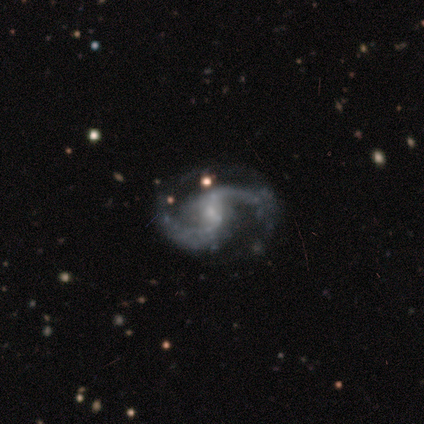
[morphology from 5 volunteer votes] Smooth or featured?
  - featured or disk: 60% *
  - star or artifact: 40%
  - smooth: 0%
Edge-on disk?
  - no: 100% *
  - yes: 0%
Bar?
  - no: 67% *
  - weak: 33%
  - strong: 0%
Spiral arms?
  - yes: 100% *
  - no: 0%
Spiral winding?
  - loose: 67% *
  - medium: 33%
  - tight: 0%
Spiral arm count?
  - 2: 100% *
  - 1: 0%
  - 3: 0%
  - 4: 0%
  - more than 4: 0%
  - can't tell: 0%
Bulge size?
  - small: 67% *
  - none: 33%
  - dominant: 0%
  - large: 0%
  - moderate: 0%
Merging?
  - none: 100% *
  - minor disturbance: 0%
  - major disturbance: 0%
  - merger: 0%